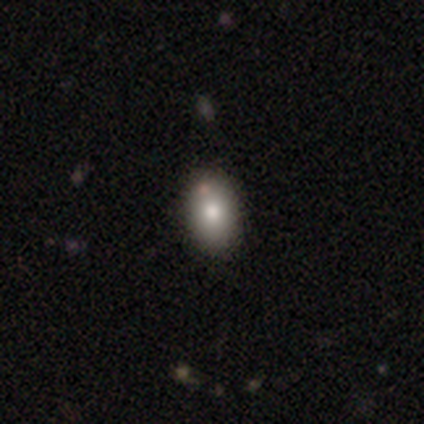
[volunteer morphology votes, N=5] featured or disk 60%, smooth 40%, star or artifact 0%. Down the decision tree: edge-on disk — no (67%); bar — no (100%); spiral arms — no (100%); bulge size — moderate (100%); merging — none (60%).